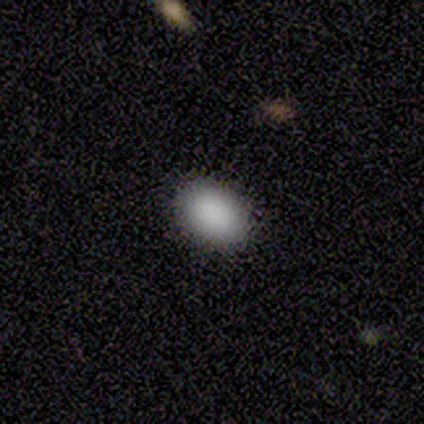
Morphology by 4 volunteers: Smooth or featured? smooth (75%)
How rounded? in between (67%)
Merging? none (100%)